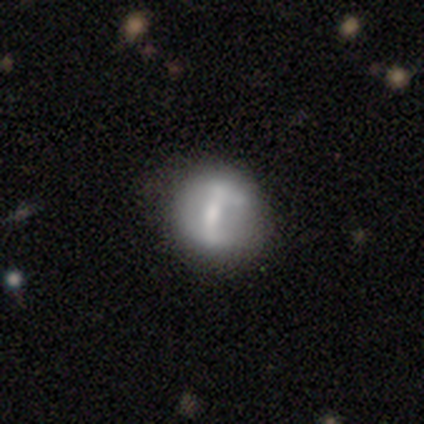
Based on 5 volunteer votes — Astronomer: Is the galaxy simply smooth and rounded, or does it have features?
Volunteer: smooth — 40%, tied with star or artifact at 40%.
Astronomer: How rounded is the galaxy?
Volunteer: round — 100%.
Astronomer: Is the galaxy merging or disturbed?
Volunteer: none — 67%.